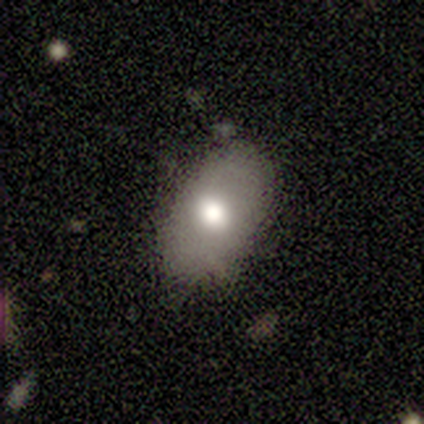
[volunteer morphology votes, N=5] Overall: smooth (100%). How rounded: in between (100%). Merging: none (100%).